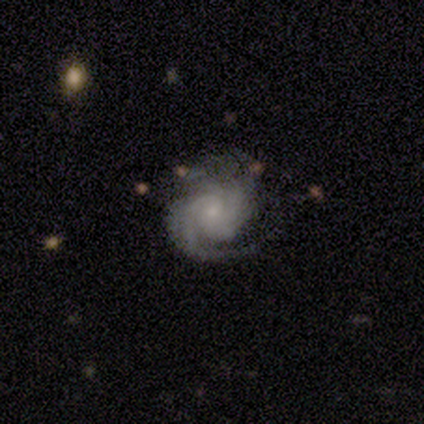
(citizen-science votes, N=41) Smooth or featured?
  - featured or disk: 88% *
  - star or artifact: 7%
  - smooth: 5%
Edge-on disk?
  - no: 97% *
  - yes: 3%
Bar?
  - no: 69% *
  - weak: 26%
  - strong: 6%
Spiral arms?
  - yes: 100% *
  - no: 0%
Spiral winding?
  - tight: 66% *
  - medium: 26%
  - loose: 9%
Spiral arm count?
  - can't tell: 31% *
  - 2: 26%
  - 4: 17%
  - 3: 14%
  - 1: 6%
  - more than 4: 6%
Bulge size?
  - small: 77% *
  - moderate: 11%
  - none: 9%
  - large: 3%
  - dominant: 0%
Merging?
  - none: 61% *
  - minor disturbance: 24%
  - major disturbance: 16%
  - merger: 0%